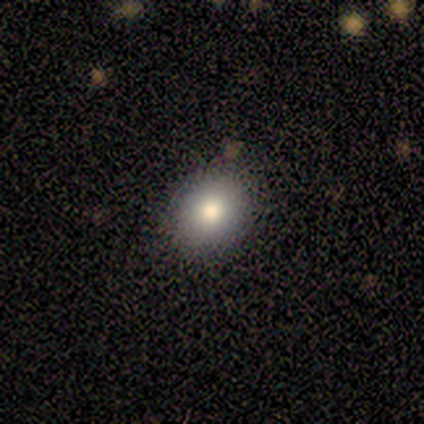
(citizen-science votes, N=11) Smooth or featured: smooth — 73% (star or artifact — 18%)
How rounded: round — 50% (tied with in between — 50%)
Merging: none — 89% (minor disturbance — 11%)